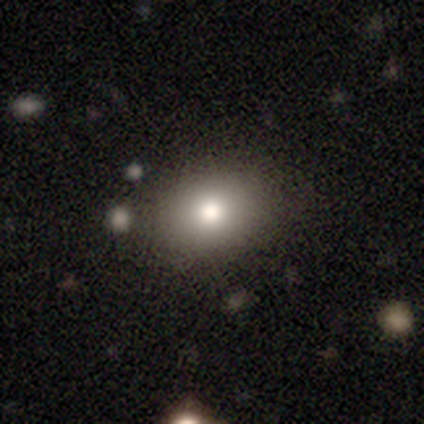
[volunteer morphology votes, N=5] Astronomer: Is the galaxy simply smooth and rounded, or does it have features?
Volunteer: smooth — 100%.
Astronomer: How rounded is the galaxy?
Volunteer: in between — 60% (runner-up: round, 40%).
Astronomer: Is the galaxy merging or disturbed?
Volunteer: none — 100%.